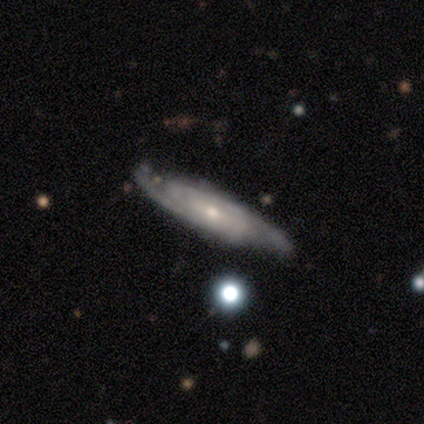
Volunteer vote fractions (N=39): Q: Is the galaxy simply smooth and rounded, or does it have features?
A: featured or disk — 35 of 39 (90%).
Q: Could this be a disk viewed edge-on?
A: no — 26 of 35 (74%).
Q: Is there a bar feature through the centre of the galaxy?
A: no — 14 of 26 (54%).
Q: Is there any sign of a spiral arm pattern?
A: yes — 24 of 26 (92%).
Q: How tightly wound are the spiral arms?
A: tight — 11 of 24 (46%, tied with medium).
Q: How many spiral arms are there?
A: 2 — 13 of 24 (54%).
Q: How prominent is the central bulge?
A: small — 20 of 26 (77%).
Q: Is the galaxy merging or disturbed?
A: none — 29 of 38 (76%).